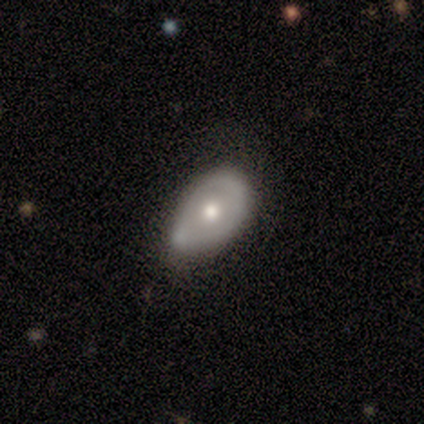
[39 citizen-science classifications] smooth_or_featured: featured or disk (p=0.51) [alt: smooth p=0.46]
disk_edge_on: no (p=0.90) [alt: yes p=0.10]
bar: no (p=0.89) [alt: weak p=0.11]
has_spiral_arms: no (p=0.94) [alt: yes p=0.06]
bulge_size: moderate (p=0.83) [alt: small p=0.17]
merging: minor disturbance (p=0.66) [alt: none p=0.24]